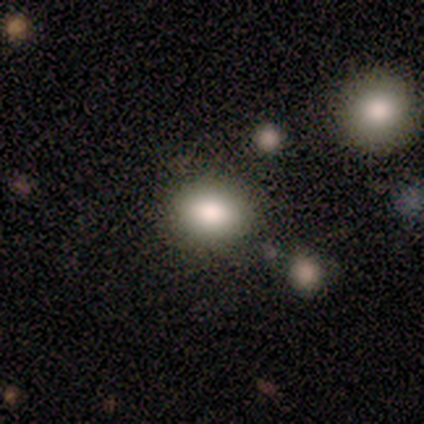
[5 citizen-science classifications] Overall: smooth (100%). How rounded: in between (60%; round 40%). Merging: none (60%; minor disturbance 20%).